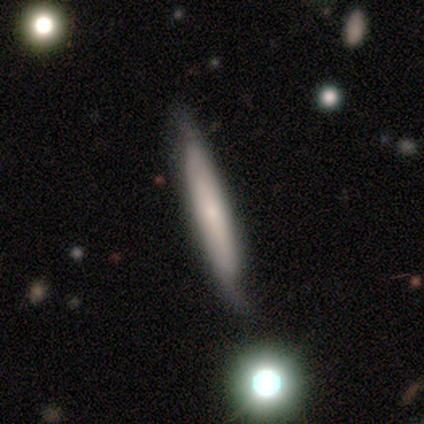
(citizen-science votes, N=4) Smooth or featured: smooth — 100%
How rounded: cigar-shaped — 100%
Merging: minor disturbance — 50% (none — 25%)